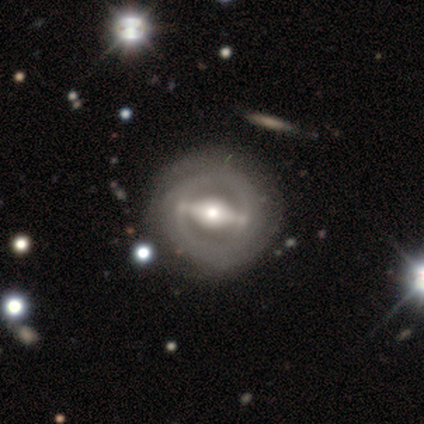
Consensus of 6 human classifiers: featured or disk 67%, smooth 33%, star or artifact 0%. Down the decision tree: edge-on disk — no (100%); bar — strong (100%); spiral arms — yes (75%); spiral arm count — 2 (33%, tied with more than 4 and can't tell); spiral winding — tight (33%, tied with medium and loose); bulge size — moderate (75%); merging — none (67%).